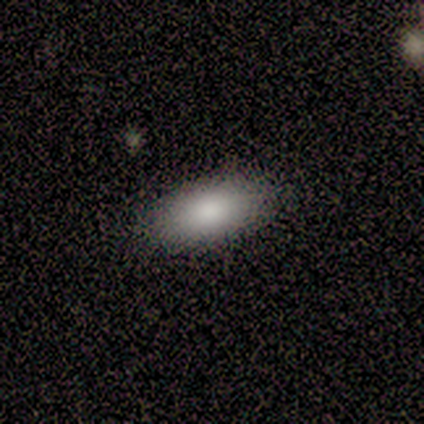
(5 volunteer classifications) A smooth galaxy with no disk features (100%) that is in between round and cigar-shaped (100%). Merging: none (100%).